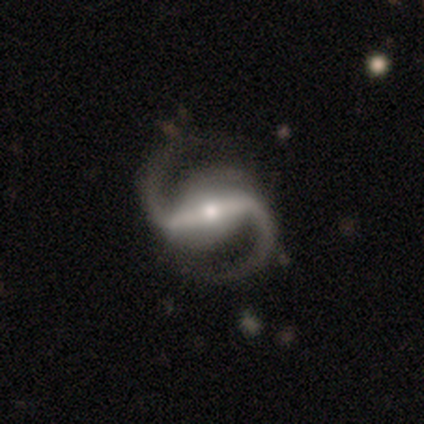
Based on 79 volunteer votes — Smooth or featured? featured or disk (99%)
Edge-on disk? no (90%)
Bar? strong (76%)
Spiral arms? yes (99%)
Spiral winding? medium (57%)
Spiral arm count? 2 (94%)
Bulge size? small (53%)
Merging? none (76%)